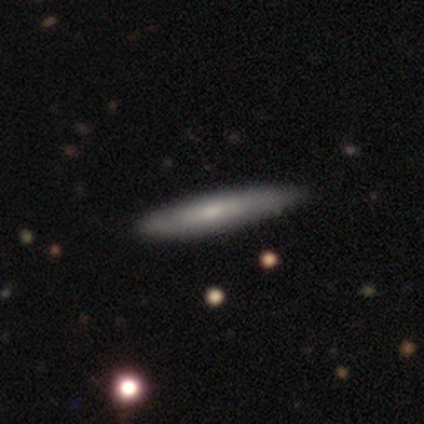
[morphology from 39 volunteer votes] Q: Smooth or featured?
A: featured or disk (54%); runner-up: smooth (44%)
Q: Edge-on disk?
A: yes (71%); runner-up: no (29%)
Q: Edge-on bulge?
A: none (67%); runner-up: rounded (33%)
Q: Merging?
A: none (55%); runner-up: minor disturbance (11%)